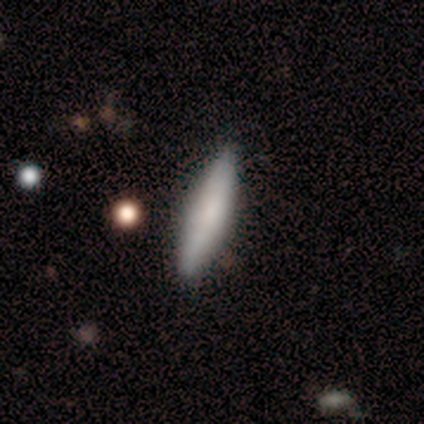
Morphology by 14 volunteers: A smooth galaxy with no disk features (79%) that is cigar-shaped (73%). Merging: none (86%).